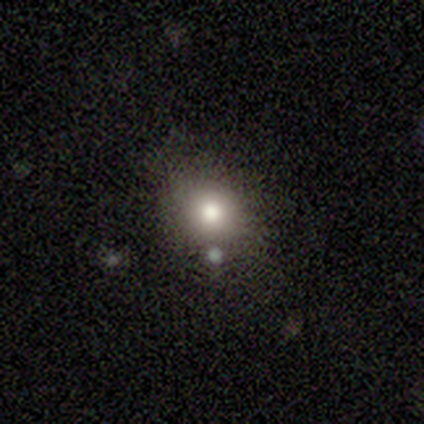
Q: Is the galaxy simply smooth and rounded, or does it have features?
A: smooth — 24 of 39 (62%).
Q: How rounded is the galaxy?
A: round — 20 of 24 (83%).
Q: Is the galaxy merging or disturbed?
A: none — 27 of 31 (87%).